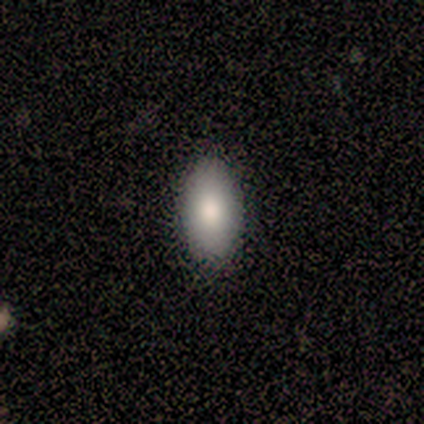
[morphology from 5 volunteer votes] smooth_or_featured: smooth (p=1.00)
how_rounded: in between (p=1.00)
merging: none (p=0.80) [alt: minor disturbance p=0.20]